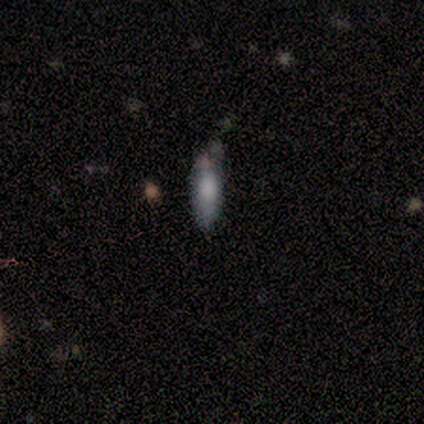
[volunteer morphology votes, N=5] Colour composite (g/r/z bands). It shows a smooth galaxy with no disk features (80%) that is in between round and cigar-shaped (75%). Merging: none (100%).